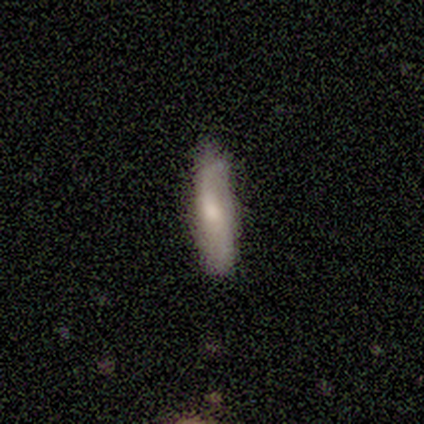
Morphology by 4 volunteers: Overall: smooth (100%). How rounded: cigar-shaped (100%). Merging: none (100%).